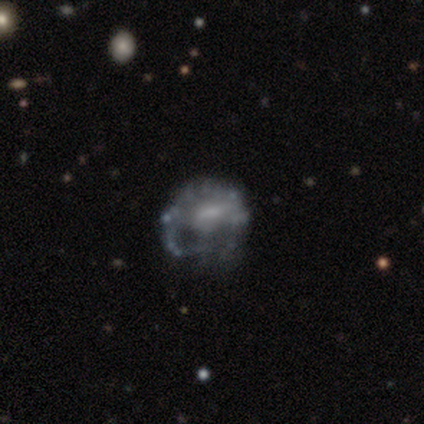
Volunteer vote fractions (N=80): featured or disk 78%, smooth 18%, star or artifact 5%. Down the decision tree: edge-on disk — no (100%); bar — no (48%); spiral arms — no (69%); bulge size — none (39%); merging — major disturbance (26%).